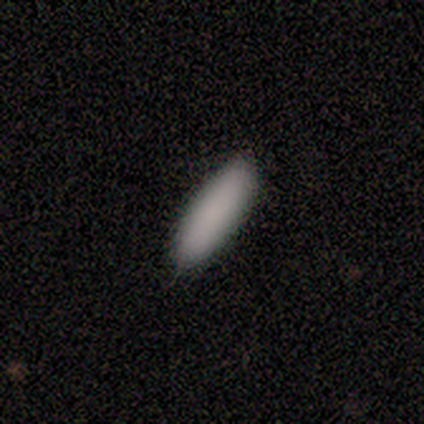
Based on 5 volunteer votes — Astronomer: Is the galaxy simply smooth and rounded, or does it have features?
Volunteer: smooth — 100%.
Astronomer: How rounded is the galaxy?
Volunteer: in between — 60% (runner-up: cigar-shaped, 40%).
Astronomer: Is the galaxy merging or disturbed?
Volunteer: none — 80%.